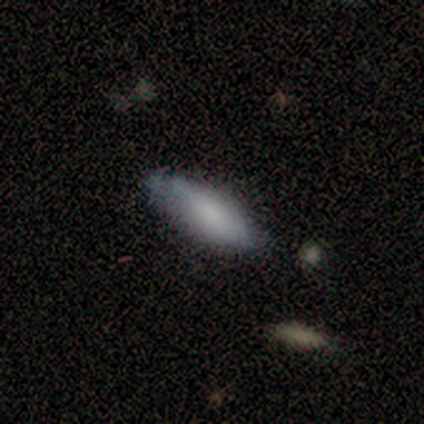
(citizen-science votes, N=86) A smooth galaxy with no disk features (71%) that is in between round and cigar-shaped (52%).

Vote fractions:
- Smooth or featured? smooth: 71% / featured or disk: 20% / star or artifact: 9%
- How rounded? in between: 52% / cigar-shaped: 46% / round: 2%
- Merging? none: 72% / minor disturbance: 22% / major disturbance: 4% / merger: 3%